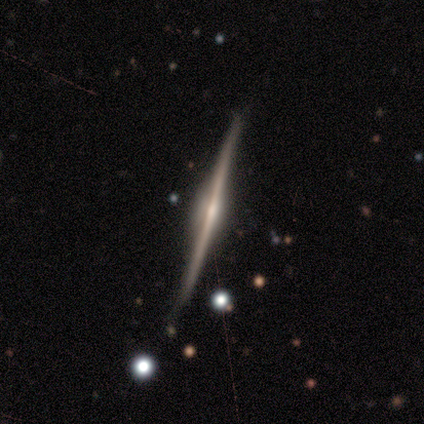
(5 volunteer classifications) Smooth or featured?
  - featured or disk: 100% *
  - smooth: 0%
  - star or artifact: 0%
Edge-on disk?
  - yes: 100% *
  - no: 0%
Edge-on bulge?
  - rounded: 60% *
  - boxy: 20%
  - none: 20%
Merging?
  - none: 100% *
  - minor disturbance: 0%
  - major disturbance: 0%
  - merger: 0%